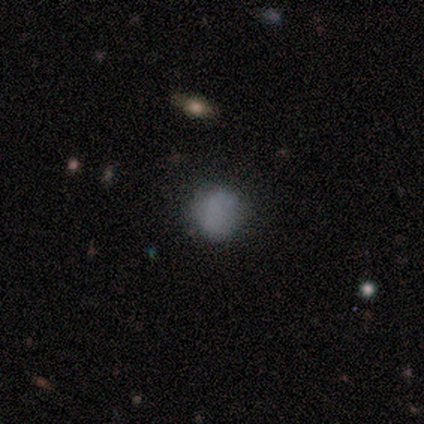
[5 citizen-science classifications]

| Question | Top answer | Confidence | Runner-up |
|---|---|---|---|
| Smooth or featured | smooth | 100% | — |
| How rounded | round | 100% | — |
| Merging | none | 100% | — |